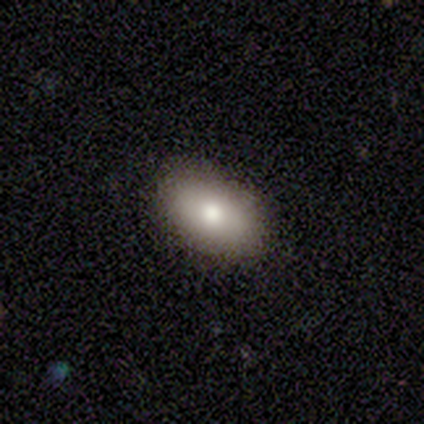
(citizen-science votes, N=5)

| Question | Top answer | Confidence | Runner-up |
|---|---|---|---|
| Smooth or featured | smooth | 80% | featured or disk (20%) |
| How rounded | in between | 75% | round (25%) |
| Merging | none | 80% | major disturbance (20%) |